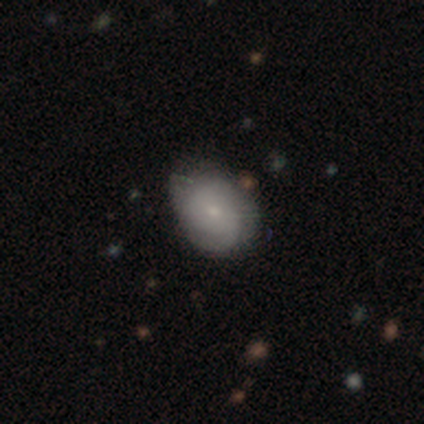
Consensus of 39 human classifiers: This appears to be a smooth galaxy with no disk features (49%) that is in between round and cigar-shaped (58%). Merging: none (61%).